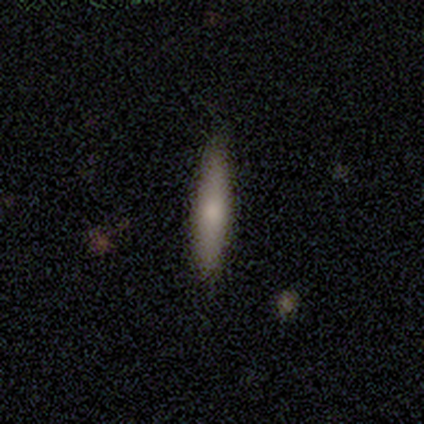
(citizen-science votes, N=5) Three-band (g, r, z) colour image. It shows a smooth galaxy with no disk features (100%) that is cigar-shaped (80%). Merging: none (80%).